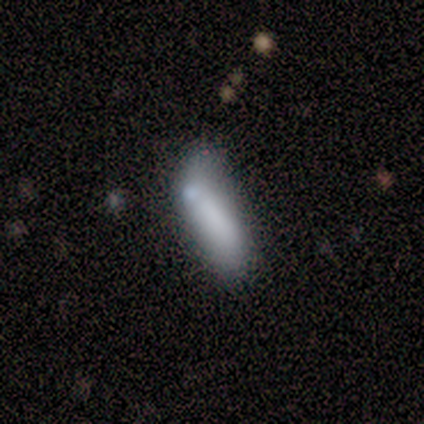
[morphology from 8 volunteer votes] A smooth galaxy with no disk features (50%, tied with featured or disk) that is in between round and cigar-shaped (50%, tied with cigar-shaped). Merging: minor disturbance (38%, tied with major disturbance).